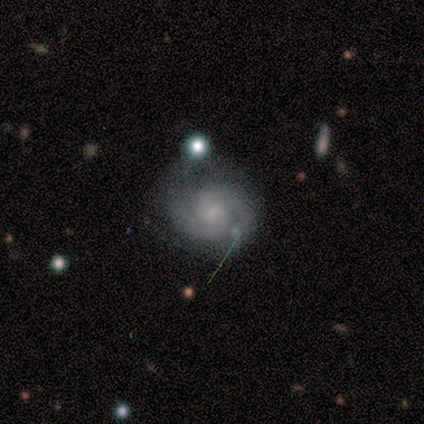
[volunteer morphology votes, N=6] Q: Smooth or featured?
A: featured or disk (83%); runner-up: smooth (17%)
Q: Edge-on disk?
A: no (100%)
Q: Bar?
A: weak (60%); runner-up: no (40%)
Q: Spiral arms?
A: yes (100%)
Q: Spiral winding?
A: tight (100%)
Q: Spiral arm count?
A: 2 (100%)
Q: Bulge size?
A: moderate (60%); runner-up: small (40%)
Q: Merging?
A: none (83%); runner-up: minor disturbance (17%)